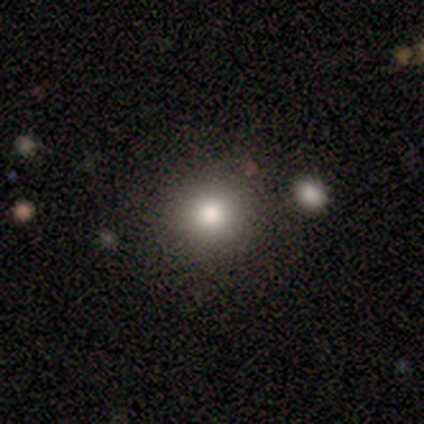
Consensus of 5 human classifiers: Overall: smooth (100%). How rounded: round (100%). Merging: none (100%).